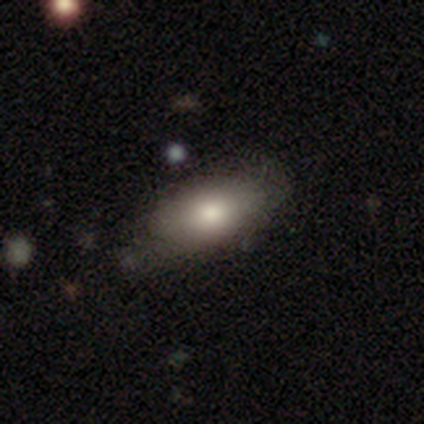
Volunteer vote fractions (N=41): Morphology: type=smooth (85%); roundness=in between (100%); merging=none (56%).